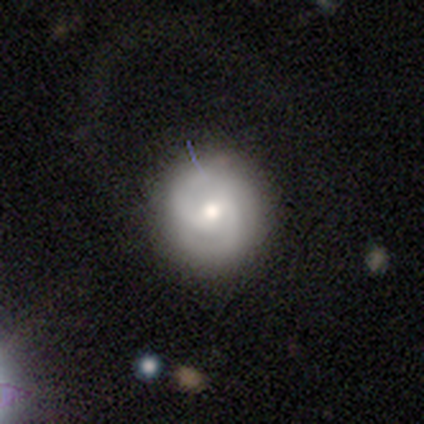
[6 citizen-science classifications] smooth 50% (tied), featured or disk 50% (tied), star or artifact 0%. Down the decision tree: how rounded — round (100%); merging — none (33%, tied with minor disturbance and major disturbance).